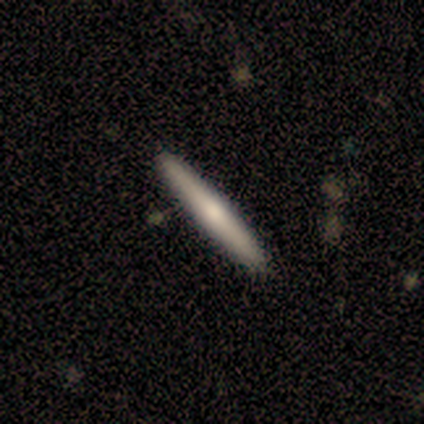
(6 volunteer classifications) Morphology: type=smooth (67%); roundness=cigar-shaped (100%); merging=none (83%).